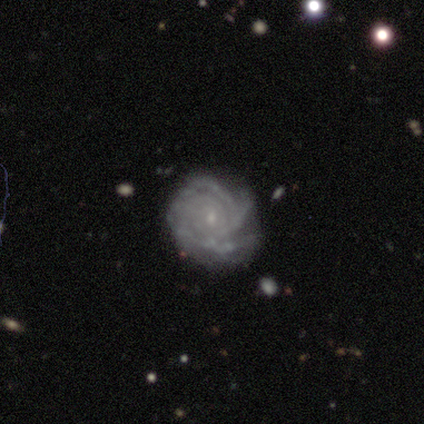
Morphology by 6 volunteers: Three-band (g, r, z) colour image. It shows a featured or disk galaxy (100%) with no bar (83%), 3 (50%) tight (67%) spiral arms (100%) and a small central bulge (100%). Merging: minor disturbance (50%).